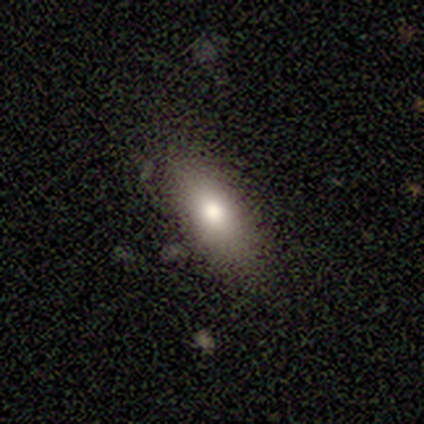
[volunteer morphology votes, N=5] This is likely a smooth galaxy (60%). How rounded: clearly in between (100%). Merging: clearly none (100%).